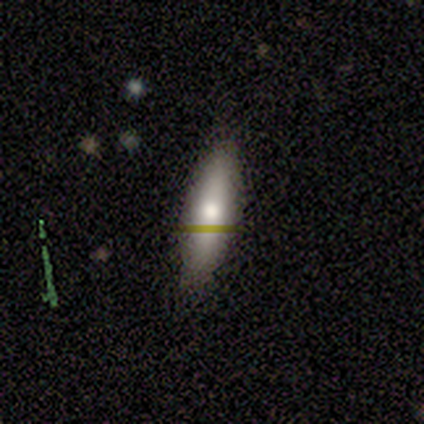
Volunteers were most divided on "how rounded": cigar-shaped: 55%, in between: 45%, round: 0%. More confident: merging — none (89%); smooth or featured — smooth (55%).